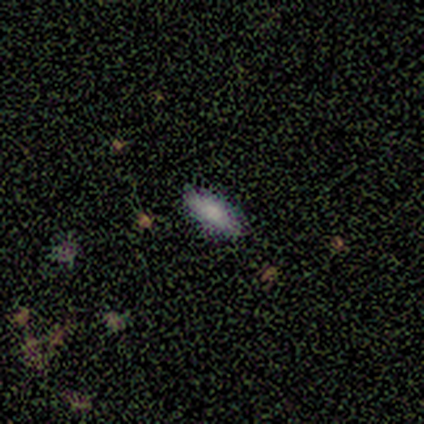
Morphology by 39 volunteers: Smooth or featured: smooth — 69% (star or artifact — 23%)
How rounded: in between — 67% (cigar-shaped — 26%)
Merging: none — 83% (minor disturbance — 13%)